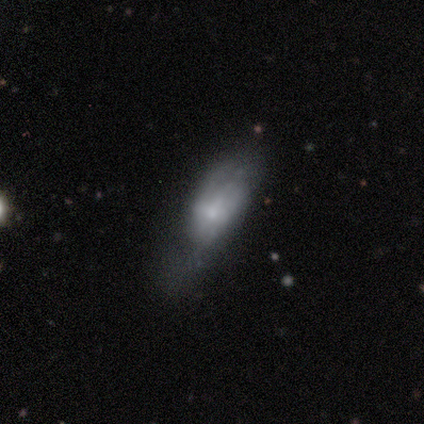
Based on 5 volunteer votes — Volunteers were most divided on "merging": minor disturbance: 50%, none: 25%, major disturbance: 25%, merger: 0%. More confident: how rounded — in between (67%); smooth or featured — smooth (60%).